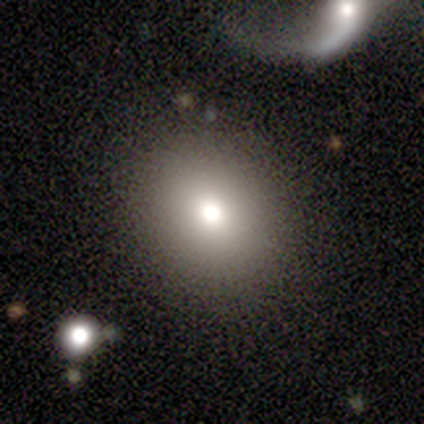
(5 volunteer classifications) Volunteers were most divided on "how rounded": round: 67%, in between: 33%, cigar-shaped: 0%. More confident: merging — none (100%); smooth or featured — smooth (60%).